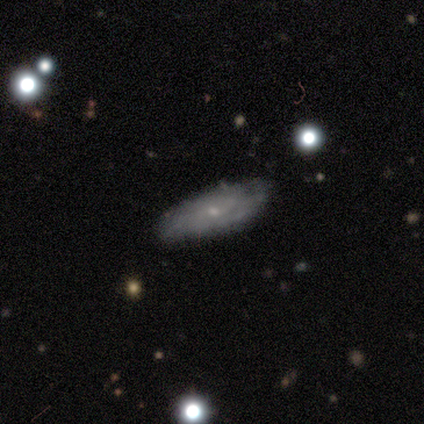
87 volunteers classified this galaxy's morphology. smooth-or-featured: featured or disk: 66% | smooth: 31% | star or artifact: 3%
  disk-edge-on: no: 70% | yes: 30%
    bar: no: 78% | weak: 22% | strong: 0%
    has-spiral-arms: yes: 78% | no: 22%
      spiral-winding: medium: 48% | tight: 39% | loose: 13%
      spiral-arm-count: can't tell: 65% | 2: 23% | 3: 6% | 4: 3% | more than 4: 3% | 1: 0%
    bulge-size: small: 80% | none: 10% | moderate: 8% | dominant: 2% | large: 0%
  merging: none: 73% | minor disturbance: 24% | major disturbance: 2% | merger: 1%